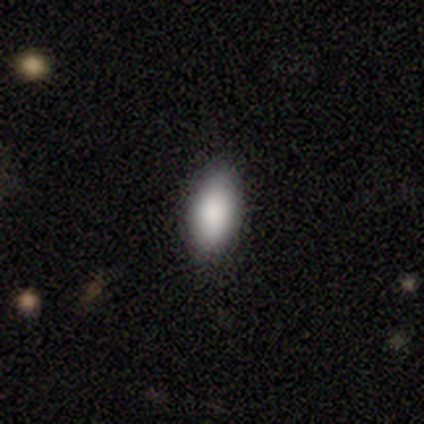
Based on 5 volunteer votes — Smooth or featured? 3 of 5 (60%) said smooth. How rounded? 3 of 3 (100%) said in between. Merging? 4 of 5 (80%) said none.